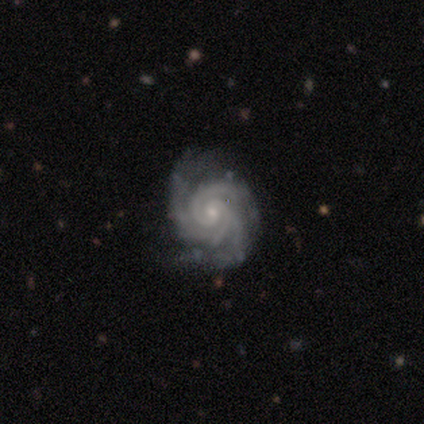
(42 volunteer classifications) This appears to be a featured or disk galaxy (88%) with no bar (62%), 3 (57%) tight (78%) spiral arms (100%) and a small central bulge (70%). Merging: none (80%).